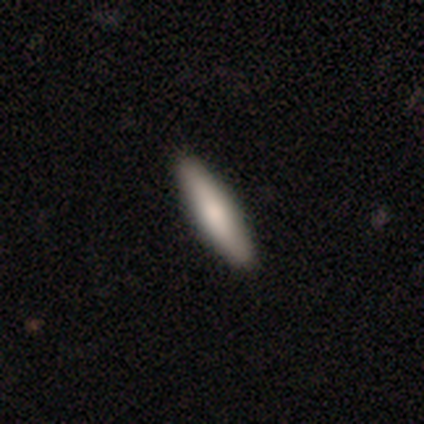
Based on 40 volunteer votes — A smooth galaxy with no disk features (70%) that is cigar-shaped (89%).

Vote fractions:
- Smooth or featured? smooth: 70% / featured or disk: 28% / star or artifact: 2%
- How rounded? cigar-shaped: 89% / in between: 11% / round: 0%
- Merging? none: 74% / minor disturbance: 3% / major disturbance: 0% / merger: 0%